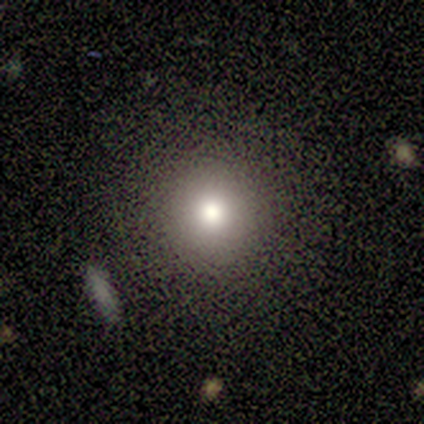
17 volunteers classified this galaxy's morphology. A smooth galaxy with no disk features (71%) that is round (100%).

Vote fractions:
- Smooth or featured? smooth: 71% / featured or disk: 24% / star or artifact: 6%
- How rounded? round: 100% / in between: 0% / cigar-shaped: 0%
- Merging? none: 94% / minor disturbance: 6% / major disturbance: 0% / merger: 0%